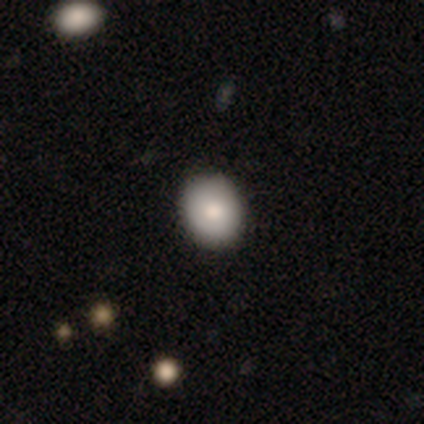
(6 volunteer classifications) smooth 67%, featured or disk 33%, star or artifact 0%. Down the decision tree: how rounded — round (75%); merging — none (83%).